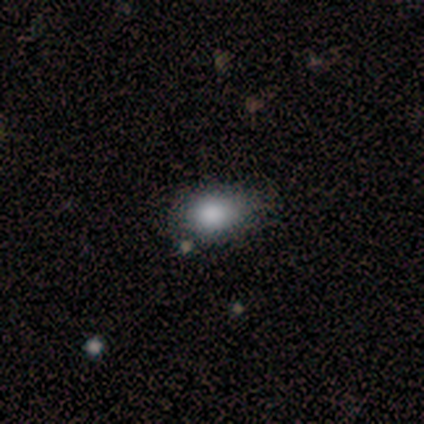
Q: Smooth or featured?
A: smooth (67%); runner-up: featured or disk (33%)
Q: How rounded?
A: in between (100%)
Q: Merging?
A: none (100%)